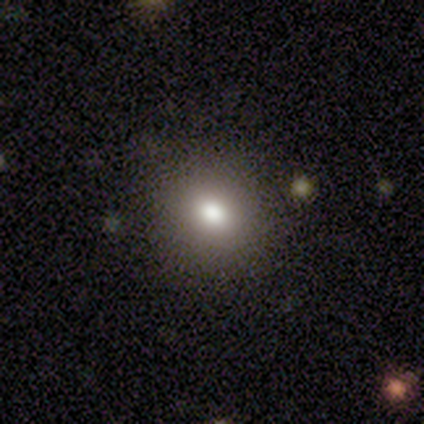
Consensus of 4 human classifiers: smooth-or-featured: smooth: 75% | star or artifact: 25% | featured or disk: 0%
  how-rounded: round: 67% | in between: 33% | cigar-shaped: 0%
  merging: none: 100% | minor disturbance: 0% | major disturbance: 0% | merger: 0%